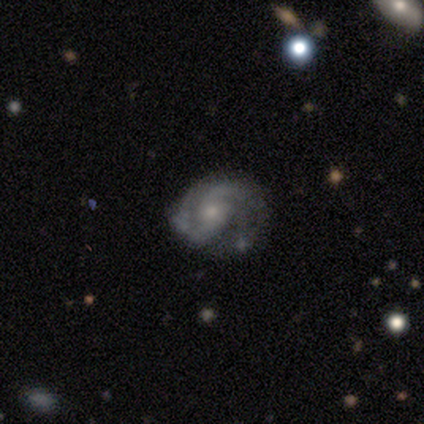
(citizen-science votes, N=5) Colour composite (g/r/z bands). It shows a featured or disk galaxy (60%) with no bar (100%), 2 (100%) loose (100%) spiral arms (100%) and a moderate central bulge (50%, tied with small). Merging: major disturbance (60%).